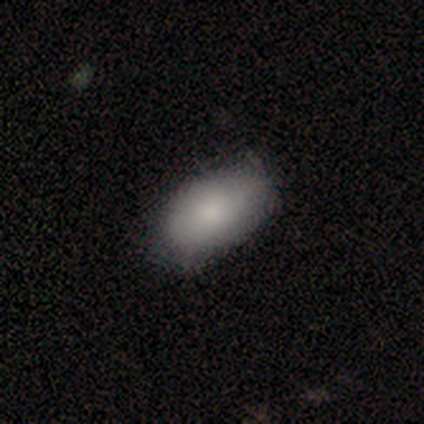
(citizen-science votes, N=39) Smooth or featured? smooth (79%)
How rounded? in between (100%)
Merging? none (42%)